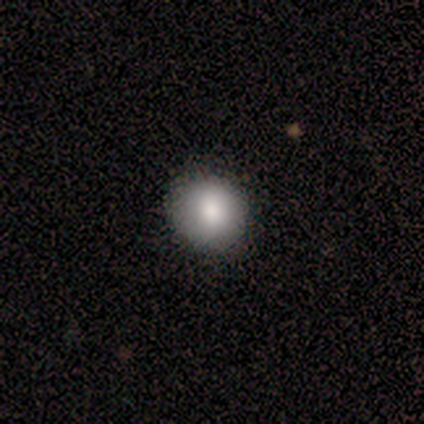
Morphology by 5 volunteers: smooth-or-featured: smooth: 100% | featured or disk: 0% | star or artifact: 0%
  how-rounded: round: 100% | in between: 0% | cigar-shaped: 0%
  merging: none: 80% | minor disturbance: 20% | major disturbance: 0% | merger: 0%